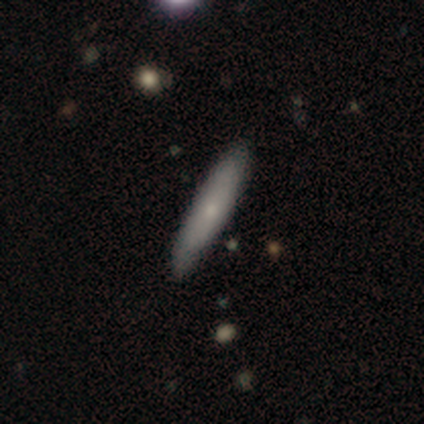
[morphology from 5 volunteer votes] Volunteers were most divided on "how rounded": cigar-shaped: 80%, in between: 20%, round: 0%. More confident: smooth or featured — smooth (100%); merging — none (80%).